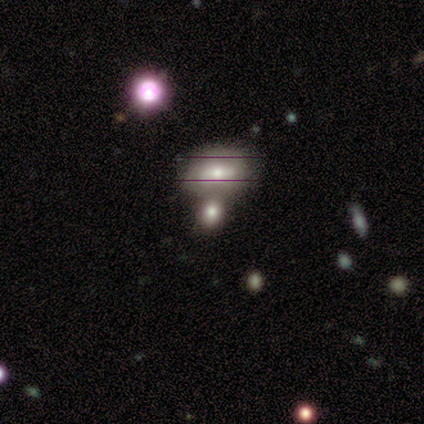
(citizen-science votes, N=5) Overall: smooth (40%, tied with featured or disk). How rounded: in between (100%). Merging: merger (75%).